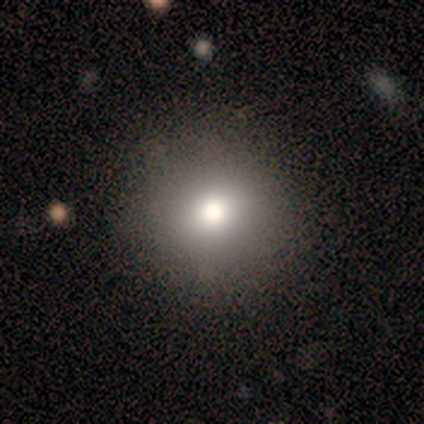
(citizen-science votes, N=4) smooth 100%, featured or disk 0%, star or artifact 0%. Down the decision tree: how rounded — round (100%); merging — none (100%).